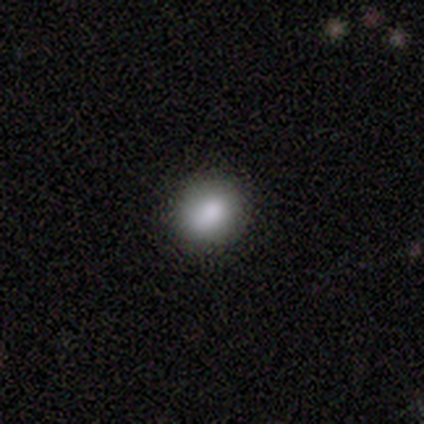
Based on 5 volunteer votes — This is clearly a smooth galaxy (80%). How rounded: clearly round (100%). Merging: clearly none (80%).